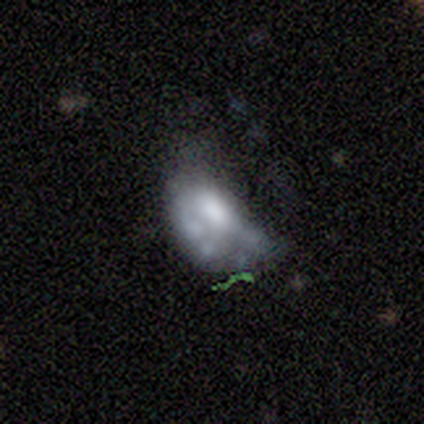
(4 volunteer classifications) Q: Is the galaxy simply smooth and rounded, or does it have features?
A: featured or disk — 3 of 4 (75%).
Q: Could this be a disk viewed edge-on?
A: no — 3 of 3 (100%).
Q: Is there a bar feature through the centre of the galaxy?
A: no — 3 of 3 (100%).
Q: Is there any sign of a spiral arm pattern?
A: no — 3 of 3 (100%).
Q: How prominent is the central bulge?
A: moderate — 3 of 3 (100%).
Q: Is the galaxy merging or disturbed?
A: major disturbance — 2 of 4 (50%).